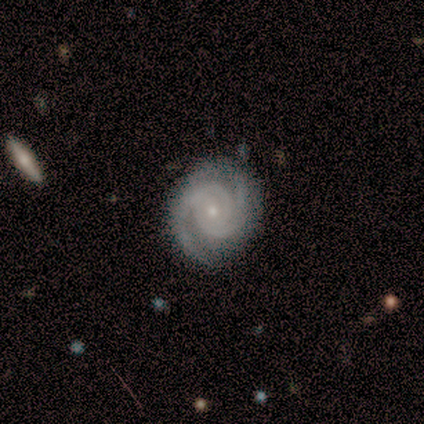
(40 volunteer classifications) Q: Smooth or featured?
A: featured or disk (100%)
Q: Edge-on disk?
A: no (95%); runner-up: yes (5%)
Q: Bar?
A: no (74%); runner-up: weak (24%)
Q: Spiral arms?
A: yes (100%)
Q: Spiral winding?
A: tight (55%); runner-up: medium (45%)
Q: Spiral arm count?
A: 2 (76%); runner-up: 3 (16%)
Q: Bulge size?
A: small (87%); runner-up: moderate (13%)
Q: Merging?
A: none (50%); runner-up: minor disturbance (10%)